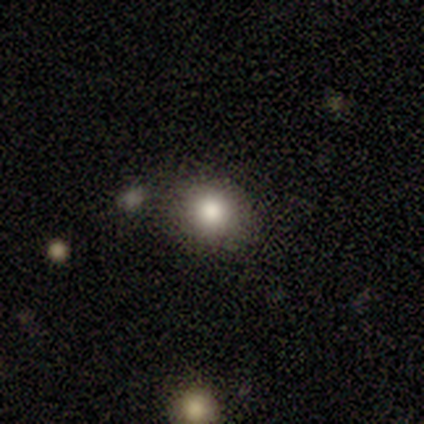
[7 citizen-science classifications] smooth 71%, featured or disk 29%, star or artifact 0%. Down the decision tree: how rounded — round (80%); merging — none (71%).